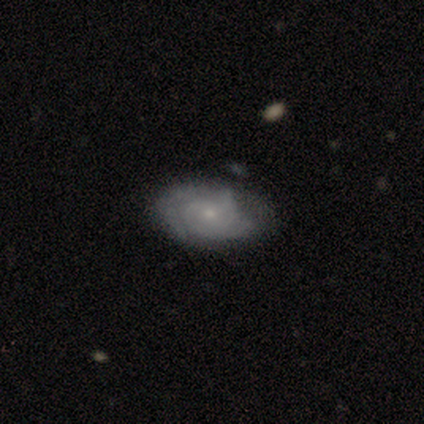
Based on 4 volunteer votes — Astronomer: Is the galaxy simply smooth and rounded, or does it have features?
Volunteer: featured or disk — 75%.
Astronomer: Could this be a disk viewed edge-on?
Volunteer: no — 100%.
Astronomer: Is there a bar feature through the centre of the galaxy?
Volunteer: weak — 67%.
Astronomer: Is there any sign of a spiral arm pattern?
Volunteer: yes — 100%.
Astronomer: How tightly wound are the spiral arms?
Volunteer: tight — 67%.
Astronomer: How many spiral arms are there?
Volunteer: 2 — 67%.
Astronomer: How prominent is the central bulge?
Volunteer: small — 100%.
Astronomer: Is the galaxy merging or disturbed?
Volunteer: none — 75%.